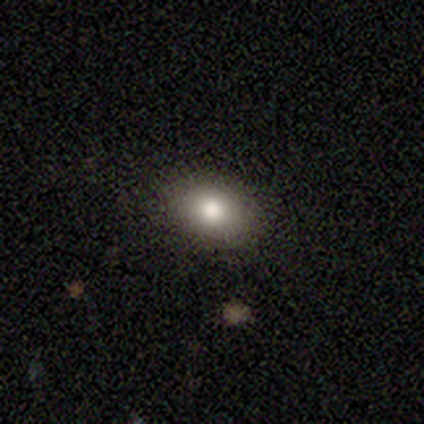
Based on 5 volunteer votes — Smooth or featured? smooth (80%)
How rounded? in between (75%)
Merging? none (100%)